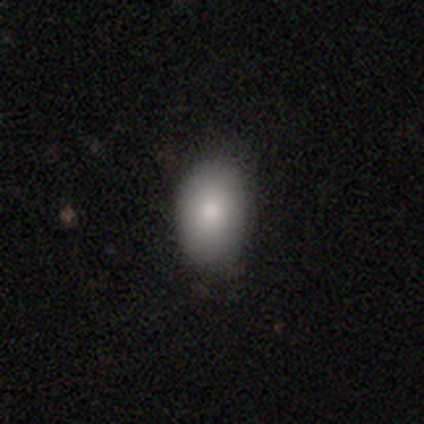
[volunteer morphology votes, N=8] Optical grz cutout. It shows a smooth galaxy with no disk features (88%) that is in between round and cigar-shaped (86%). Merging: none (100%).